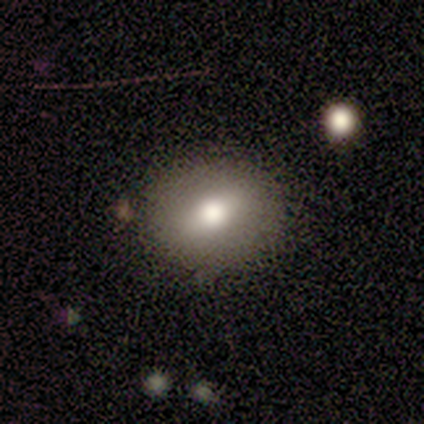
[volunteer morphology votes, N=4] Overall: smooth (75%). How rounded: round (100%). Merging: none (100%).